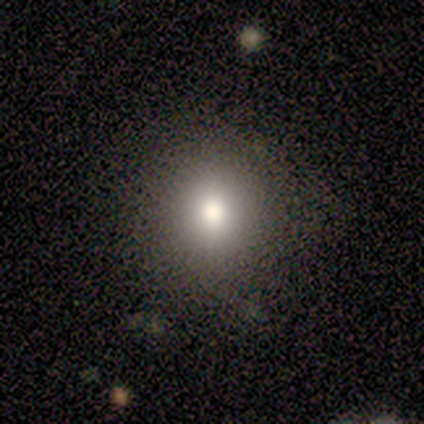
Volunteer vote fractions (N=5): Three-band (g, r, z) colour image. It shows a smooth galaxy with no disk features (100%) that is round (80%). Merging: none (100%).